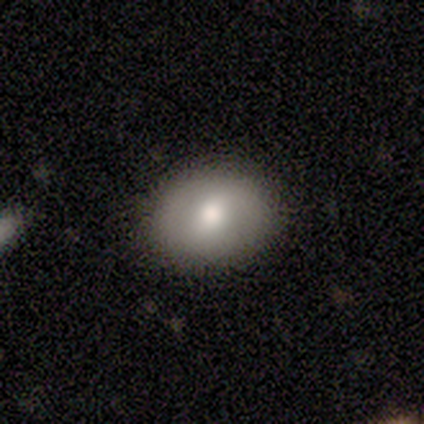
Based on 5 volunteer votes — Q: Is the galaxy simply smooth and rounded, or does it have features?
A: smooth — 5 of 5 (100%).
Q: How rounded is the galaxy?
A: in between — 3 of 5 (60%).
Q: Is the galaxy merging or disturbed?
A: none — 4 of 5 (80%).